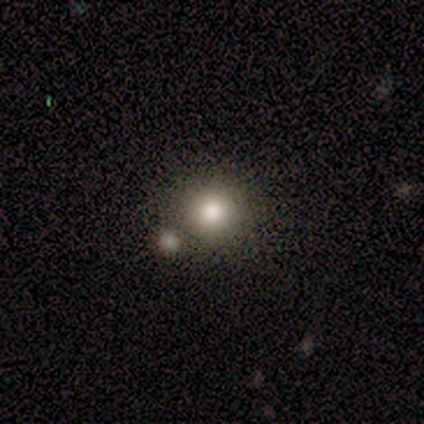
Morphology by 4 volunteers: Smooth or featured: smooth — 100%
How rounded: round — 75% (in between — 25%)
Merging: none — 100%